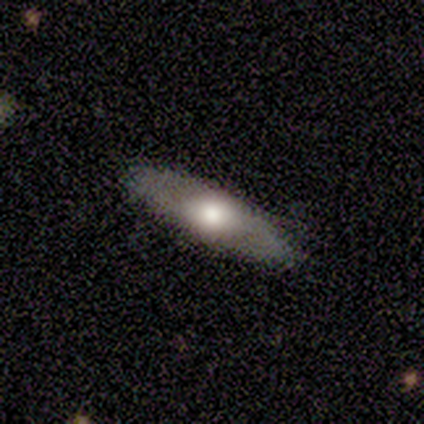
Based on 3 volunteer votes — Overall: smooth (67%; star or artifact 33%). How rounded: cigar-shaped (100%). Merging: none (50%, tied with minor disturbance).